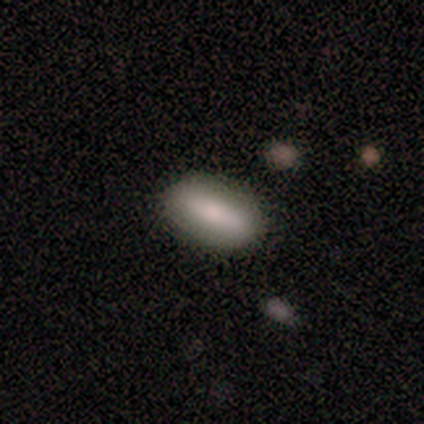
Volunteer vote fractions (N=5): Morphology: type=smooth (80%); roundness=in between (75%); merging=none (75%).